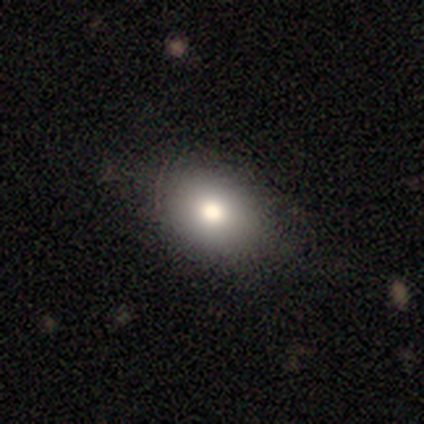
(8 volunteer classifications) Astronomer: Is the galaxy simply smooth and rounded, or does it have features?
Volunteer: smooth — 75%.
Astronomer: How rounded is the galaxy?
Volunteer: in between — 83%.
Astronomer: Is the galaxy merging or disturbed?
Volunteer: none — 83%.